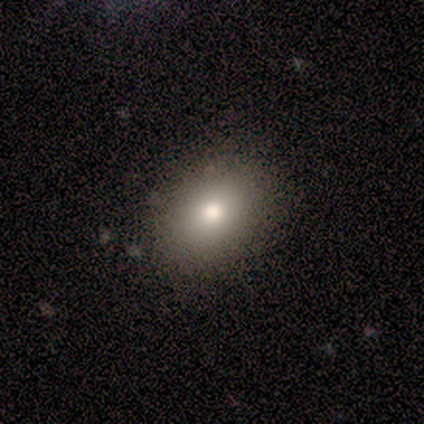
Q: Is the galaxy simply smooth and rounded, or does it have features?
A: smooth — 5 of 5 (100%).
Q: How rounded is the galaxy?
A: in between — 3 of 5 (60%).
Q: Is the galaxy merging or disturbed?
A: none — 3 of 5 (60%).